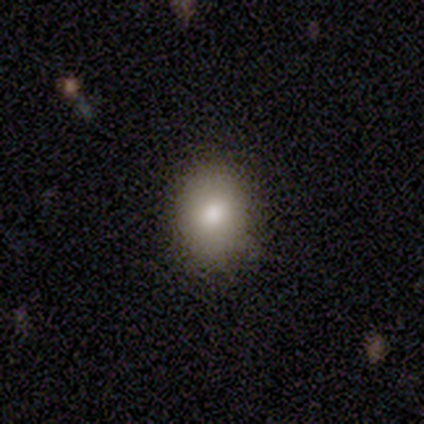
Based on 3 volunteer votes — Smooth or featured? smooth (67%)
How rounded? round (100%)
Merging? none (100%)